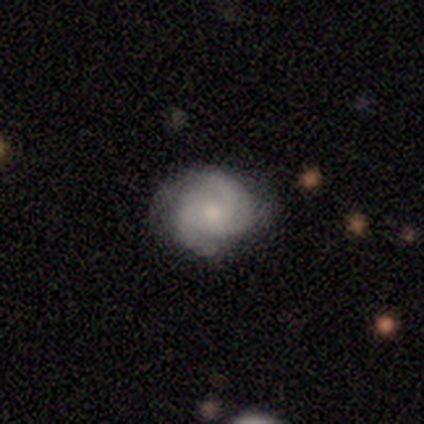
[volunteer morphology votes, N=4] Smooth or featured? 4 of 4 (100%) said featured or disk. Edge-on disk? 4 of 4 (100%) said no. Bar? 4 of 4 (100%) said no. Spiral arms? 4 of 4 (100%) said yes. Spiral winding? 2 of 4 (50%, tied with medium) said tight. Spiral arm count? 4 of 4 (100%) said 2. Bulge size? 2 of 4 (50%, tied with small) said moderate. Merging? 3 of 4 (75%) said none.